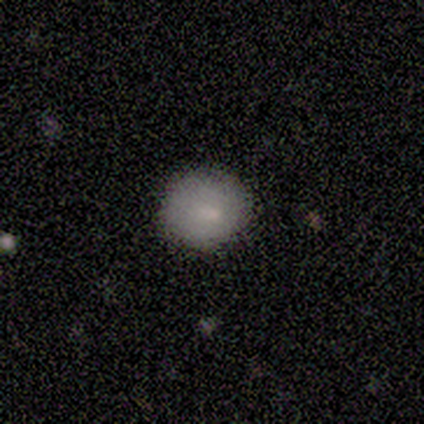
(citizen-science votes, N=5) A smooth galaxy with no disk features (100%) that is round (80%).

Vote fractions:
- Smooth or featured? smooth: 100% / featured or disk: 0% / star or artifact: 0%
- How rounded? round: 80% / in between: 20% / cigar-shaped: 0%
- Merging? none: 60% / minor disturbance: 20% / major disturbance: 20% / merger: 0%